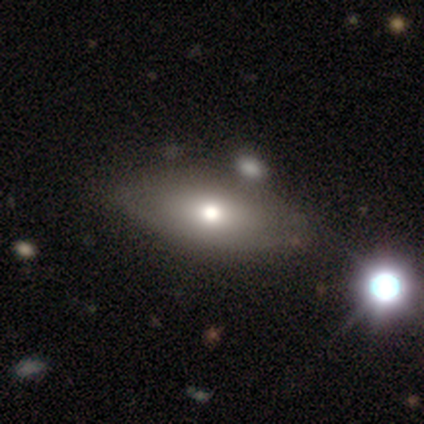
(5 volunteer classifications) Overall: featured or disk (60%; smooth 20%). Edge-on disk: no (67%; yes 33%). Bar: no (100%). Spiral arms: no (100%). Bulge size: large (50%, tied with moderate). Merging: none (75%).